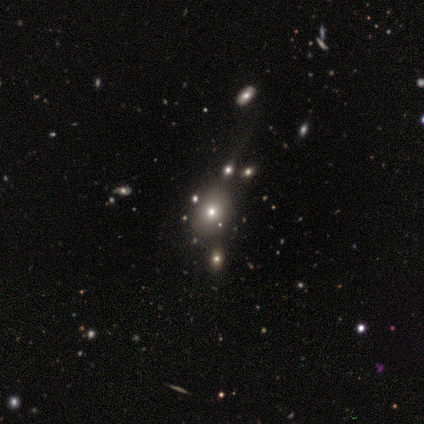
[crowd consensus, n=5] Smooth or featured: smooth — 80% (star or artifact — 20%)
How rounded: round — 75% (in between — 25%)
Merging: none — 100%